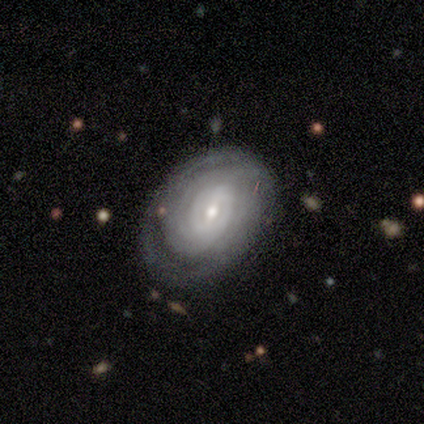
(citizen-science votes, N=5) Volunteers were most divided on "bar" (2-way tie): strong: 50%, weak: 50%, no: 0%; "bulge size" (2-way tie): moderate: 50%, small: 50%, dominant: 0%, large: 0%, none: 0%. More confident: smooth or featured — featured or disk (100%); spiral arms — yes (100%); spiral winding — tight (100%); edge-on disk — no (80%); merging — none (80%); spiral arm count — can't tell (50%).